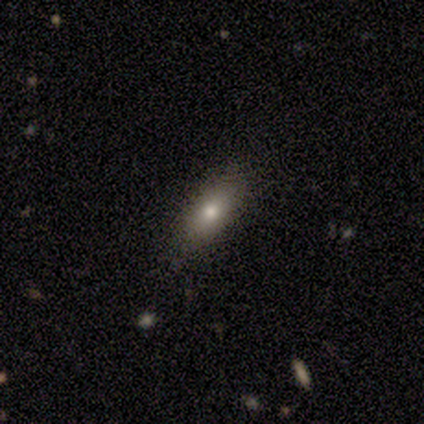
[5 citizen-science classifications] smooth_or_featured: smooth (p=0.80) [alt: star or artifact p=0.20]
how_rounded: cigar-shaped (p=0.50) [alt: round p=0.25]
merging: none (p=0.75) [alt: minor disturbance p=0.25]